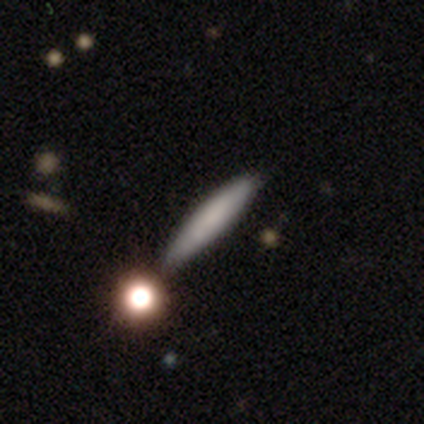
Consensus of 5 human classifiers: Overall: smooth (100%). How rounded: cigar-shaped (80%). Merging: none (60%; minor disturbance 40%).